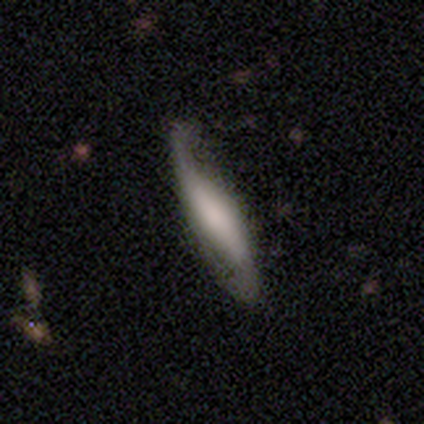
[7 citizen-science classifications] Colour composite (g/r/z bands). It shows a featured or disk galaxy (71%) with a weak bar (67%), 2 (100%) loose (100%) spiral arms (100%) and a large central bulge (33%, tied with moderate and none). Merging: minor disturbance (57%).